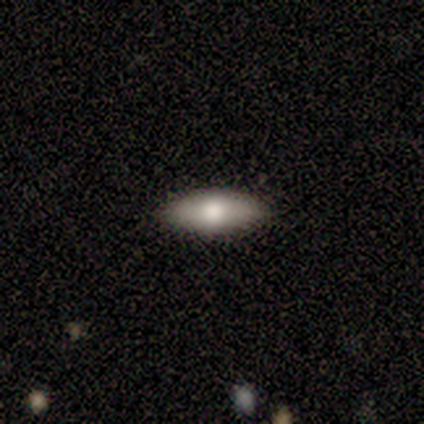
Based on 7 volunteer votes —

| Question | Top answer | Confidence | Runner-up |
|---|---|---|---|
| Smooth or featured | smooth | 57% | featured or disk (43%) |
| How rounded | in between | 100% | — |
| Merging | none | 86% | minor disturbance (14%) |